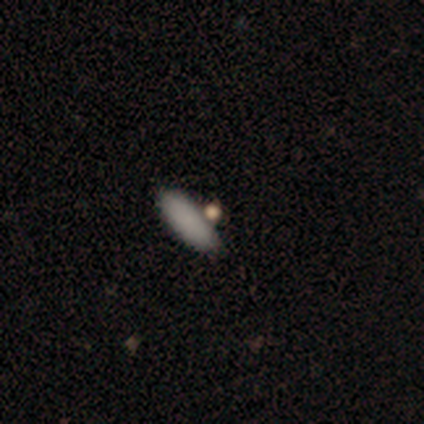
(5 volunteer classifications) Smooth or featured? 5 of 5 (100%) said smooth. How rounded? 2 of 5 (40%, tied with cigar-shaped) said in between. Merging? 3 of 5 (60%) said none.